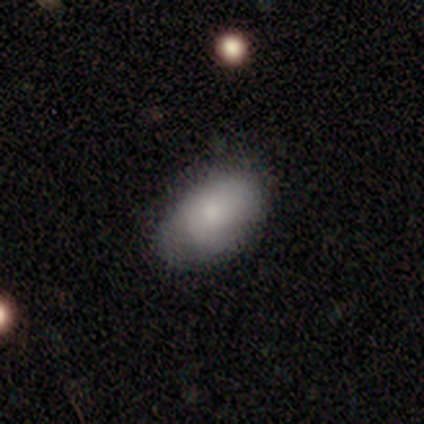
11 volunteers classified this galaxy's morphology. A smooth galaxy with no disk features (82%) that is in between round and cigar-shaped (78%). Merging: none (55%).